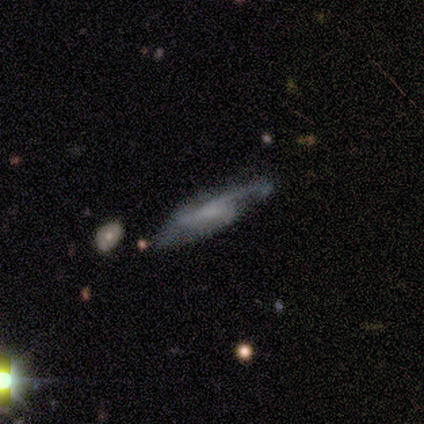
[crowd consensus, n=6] This is clearly a featured or disk galaxy (83%). It is clearly not viewed edge-on (80%). Bar: possibly weak (50%, tied with no). Spiral arm pattern: clearly yes (100%). Spiral arm count: likely 2 (75%). Spiral winding: likely loose (75%). Central bulge: possibly small (50%, tied with none). Merging: possibly none (50%).